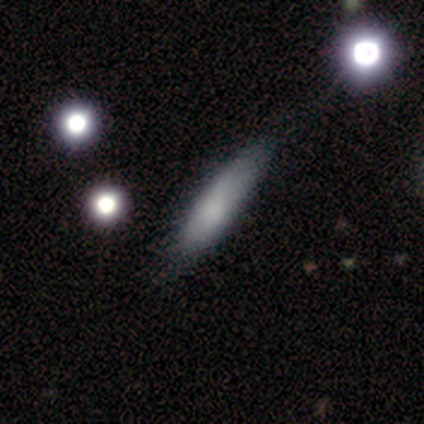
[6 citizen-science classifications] Q: Smooth or featured?
A: smooth (83%); runner-up: star or artifact (17%)
Q: How rounded?
A: cigar-shaped (60%); runner-up: in between (40%)
Q: Merging?
A: none (80%); runner-up: minor disturbance (20%)